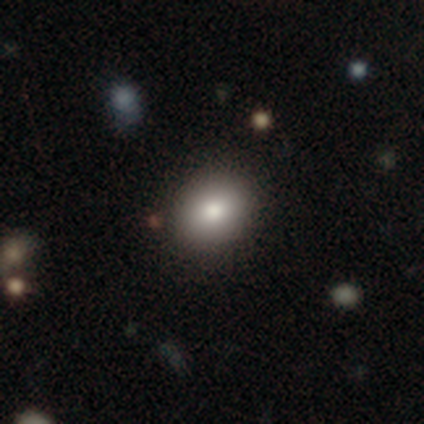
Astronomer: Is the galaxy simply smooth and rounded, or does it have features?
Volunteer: smooth — 82%.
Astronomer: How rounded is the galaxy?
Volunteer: round — 55% (runner-up: in between, 45%).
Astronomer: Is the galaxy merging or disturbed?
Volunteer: none — 90%.